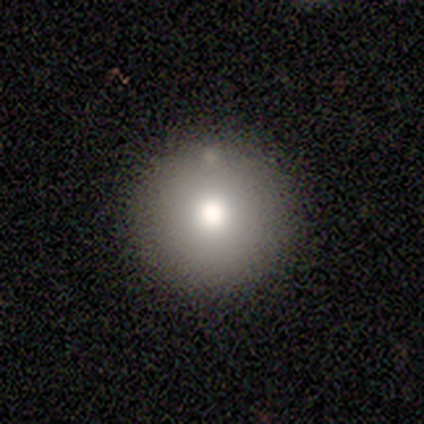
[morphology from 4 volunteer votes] Smooth or featured?
  - smooth: 50% * (tied)
  - featured or disk: 50% * (tied)
  - star or artifact: 0%
How rounded?
  - round: 100% *
  - in between: 0%
  - cigar-shaped: 0%
Merging?
  - none: 50% *
  - minor disturbance: 25%
  - major disturbance: 25%
  - merger: 0%